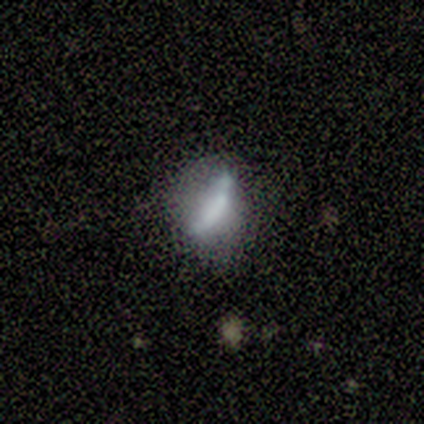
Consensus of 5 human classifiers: Overall: smooth (80%). How rounded: cigar-shaped (75%). Merging: none (40%, tied with minor disturbance).